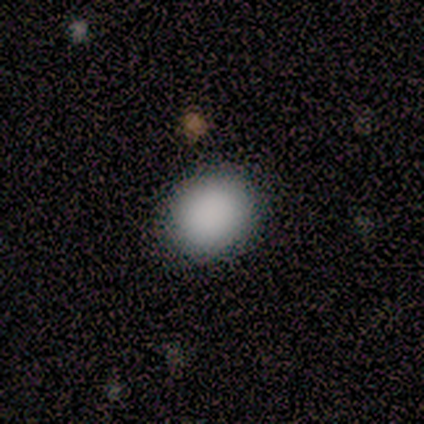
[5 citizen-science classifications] smooth 100%, featured or disk 0%, star or artifact 0%. Down the decision tree: how rounded — round (80%); merging — none (80%).